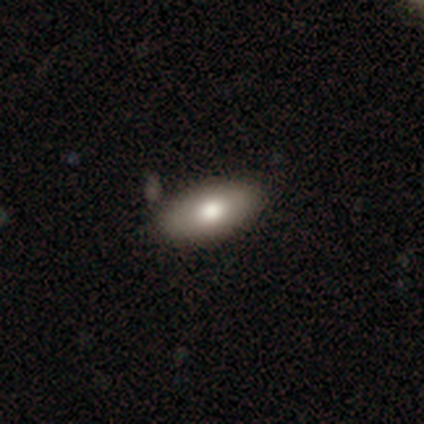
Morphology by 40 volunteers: type=smooth (85%); roundness=in between (94%); merging=none (64%).